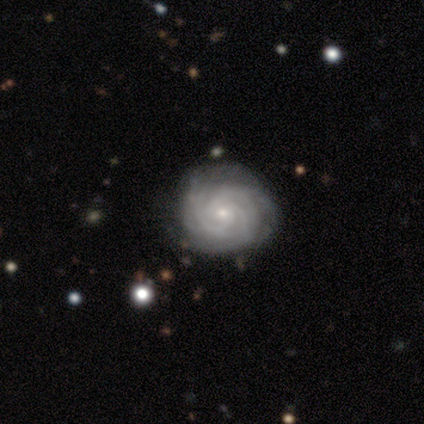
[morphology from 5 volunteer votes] smooth-or-featured: featured or disk: 60% | smooth: 40% | star or artifact: 0%
  disk-edge-on: no: 100% | yes: 0%
    bar: weak: 67% | no: 33% | strong: 0%
    has-spiral-arms: yes: 100% | no: 0%
      spiral-winding: tight: 100% | medium: 0% | loose: 0%
      spiral-arm-count: 2: 33% (tied) | 3: 33% (tied) | more than 4: 33% (tied) | 1: 0% | 4: 0% | can't tell: 0%
    bulge-size: small: 67% | moderate: 33% | dominant: 0% | large: 0% | none: 0%
  merging: none: 60% | minor disturbance: 20% | merger: 20% | major disturbance: 0%